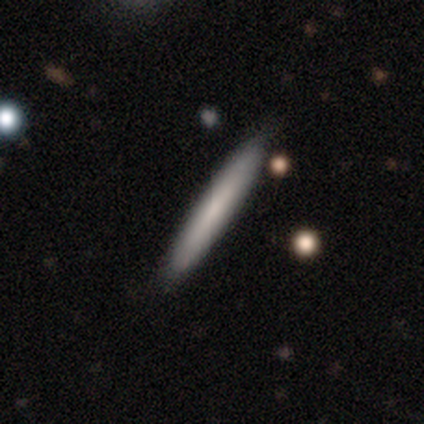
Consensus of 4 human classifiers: smooth 75%, featured or disk 25%, star or artifact 0%. Down the decision tree: how rounded — cigar-shaped (100%); merging — none (100%).